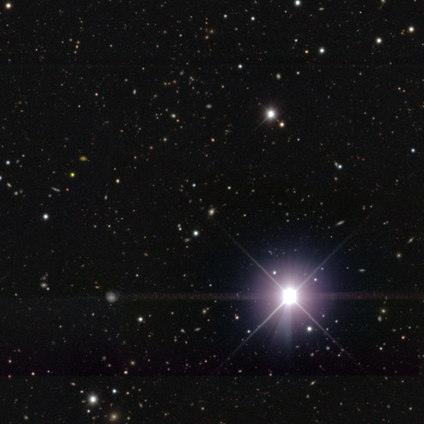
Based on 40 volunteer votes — Volunteers were most divided on "smooth or featured": star or artifact: 90%, smooth: 8%, featured or disk: 2%.